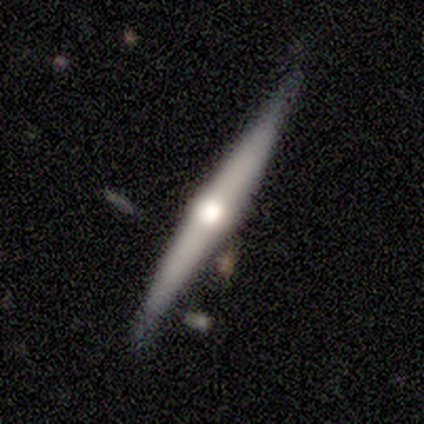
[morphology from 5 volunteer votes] A featured or disk galaxy (60%) viewed edge-on (100%) with a rounded central bulge (100%).

Vote fractions:
- Smooth or featured? featured or disk: 60% / smooth: 40% / star or artifact: 0%
- Edge-on disk? yes: 100% / no: 0%
- Edge-on bulge? rounded: 100% / boxy: 0% / none: 0%
- Merging? none: 100% / minor disturbance: 0% / major disturbance: 0% / merger: 0%